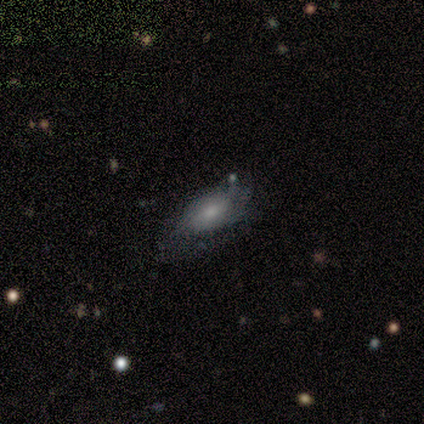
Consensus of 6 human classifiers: smooth-or-featured: smooth: 50% (tied) | featured or disk: 50% (tied) | star or artifact: 0%
  how-rounded: in between: 100% | round: 0% | cigar-shaped: 0%
  merging: minor disturbance: 50% | none: 33% | major disturbance: 17% | merger: 0%